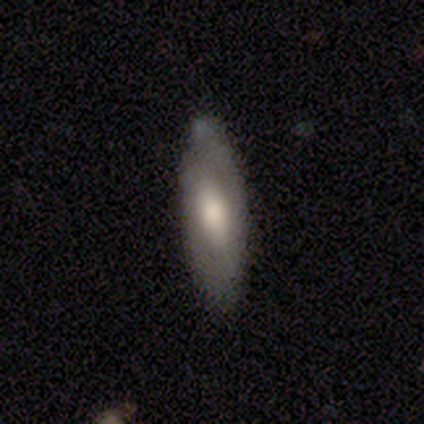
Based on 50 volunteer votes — Q: Smooth or featured?
A: smooth (46%); runner-up: featured or disk (42%)
Q: How rounded?
A: in between (57%); runner-up: cigar-shaped (35%)
Q: Merging?
A: none (70%); runner-up: minor disturbance (18%)